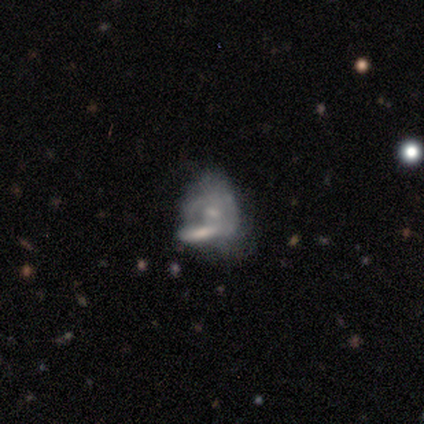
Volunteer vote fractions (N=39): smooth-or-featured: featured or disk: 69% | smooth: 28% | star or artifact: 3%
  disk-edge-on: no: 100% | yes: 0%
    bar: no: 67% | weak: 26% | strong: 7%
    has-spiral-arms: no: 52% | yes: 48%
    bulge-size: small: 63% | moderate: 22% | none: 15% | dominant: 0% | large: 0%
  merging: merger: 50% | none: 18% | minor disturbance: 18% | major disturbance: 13%